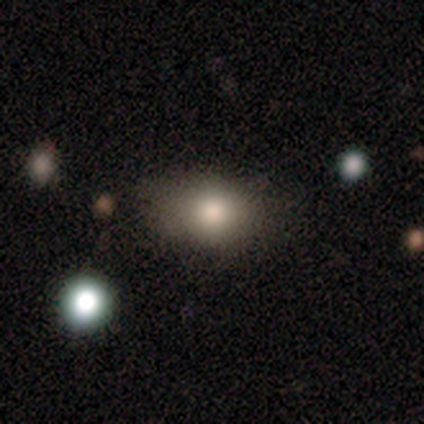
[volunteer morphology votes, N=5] smooth 60%, star or artifact 40%, featured or disk 0%. Down the decision tree: how rounded — in between (100%); merging — none (67%).